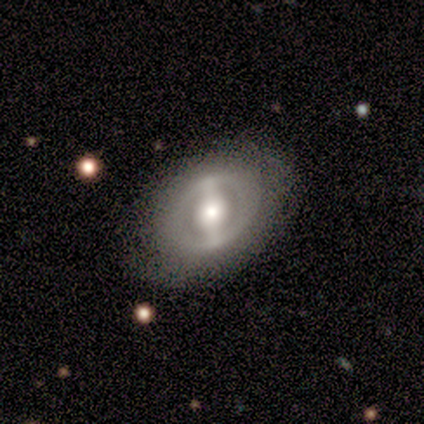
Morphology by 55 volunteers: Smooth or featured?
  - featured or disk: 75% *
  - smooth: 22%
  - star or artifact: 4%
Edge-on disk?
  - no: 90% *
  - yes: 10%
Bar?
  - strong: 81% *
  - no: 11%
  - weak: 8%
Spiral arms?
  - no: 92% *
  - yes: 8%
Bulge size?
  - large: 43% *
  - moderate: 41%
  - small: 11%
  - dominant: 5%
  - none: 0%
Merging?
  - none: 83% *
  - minor disturbance: 11%
  - major disturbance: 4%
  - merger: 2%